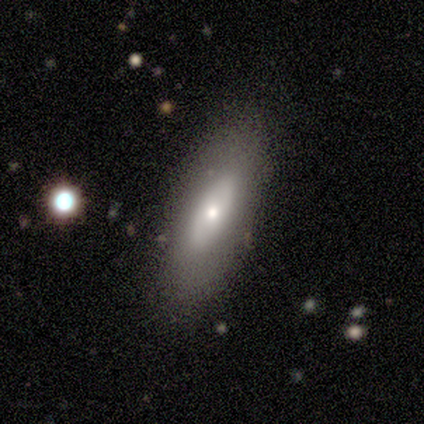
This is likely a featured or disk galaxy (60%). It is likely not viewed edge-on (67%). Bar: clearly no (100%). Spiral arm pattern: clearly no (100%). Central bulge: possibly moderate (50%, tied with small). Merging: clearly none (100%).